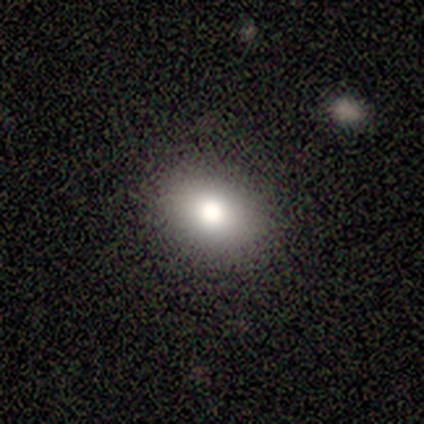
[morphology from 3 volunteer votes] smooth-or-featured: star or artifact: 67% | smooth: 33% | featured or disk: 0%